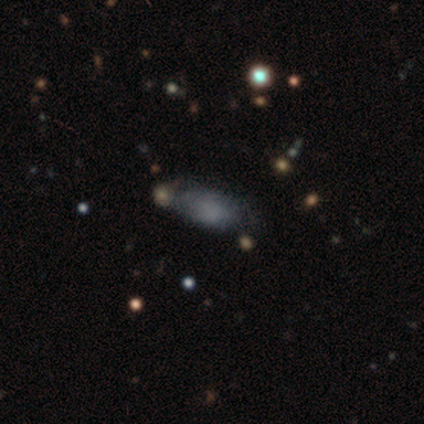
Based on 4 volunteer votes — smooth_or_featured: star or artifact (p=0.75) [alt: featured or disk p=0.25]